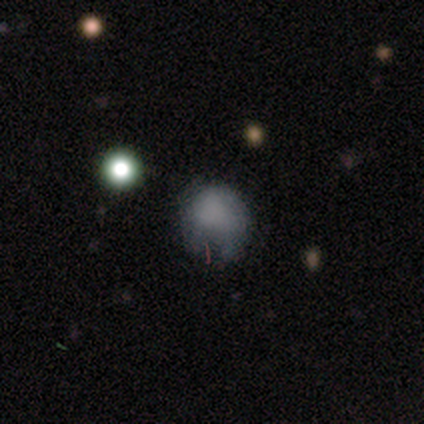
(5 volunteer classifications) A smooth galaxy with no disk features (60%) that is round (100%).

Vote fractions:
- Smooth or featured? smooth: 60% / star or artifact: 40% / featured or disk: 0%
- How rounded? round: 100% / in between: 0% / cigar-shaped: 0%
- Merging? none: 67% / minor disturbance: 33% / major disturbance: 0% / merger: 0%